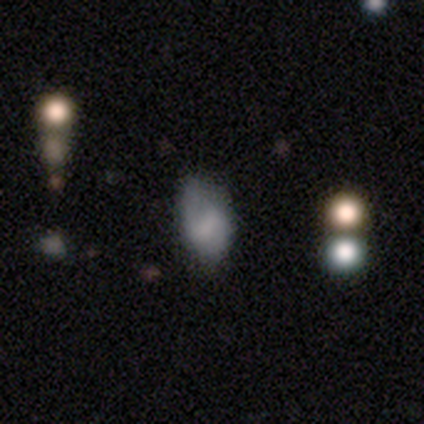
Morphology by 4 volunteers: Volunteers were most divided on "merging" (3-way tie): none: 33%, minor disturbance: 33%, major disturbance: 33%, merger: 0%. More confident: how rounded — in between (100%); smooth or featured — smooth (50%).